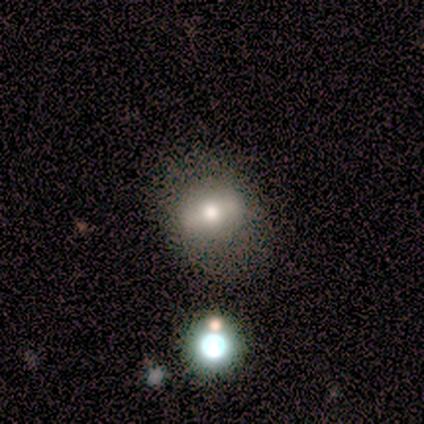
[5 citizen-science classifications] smooth-or-featured: featured or disk: 60% | smooth: 40% | star or artifact: 0%
  disk-edge-on: no: 67% | yes: 33%
    bar: strong: 50% (tied) | no: 50% (tied) | weak: 0%
    has-spiral-arms: no: 100% | yes: 0%
    bulge-size: moderate: 100% | dominant: 0% | large: 0% | small: 0% | none: 0%
  merging: none: 60% | minor disturbance: 40% | major disturbance: 0% | merger: 0%